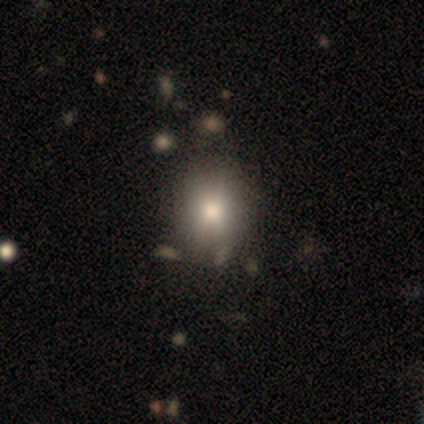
Smooth or featured? smooth (60%)
How rounded? round (67%)
Merging? none (75%)